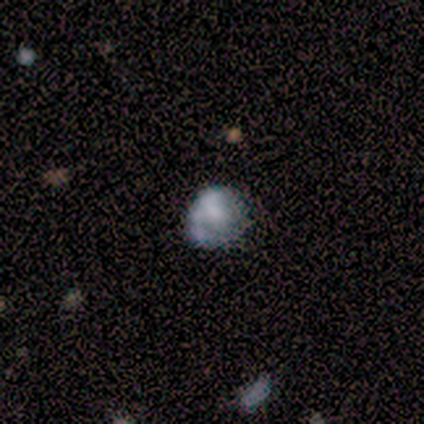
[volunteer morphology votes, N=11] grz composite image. It shows a smooth galaxy with no disk features (45%) that is round (60%). Merging: none (57%).